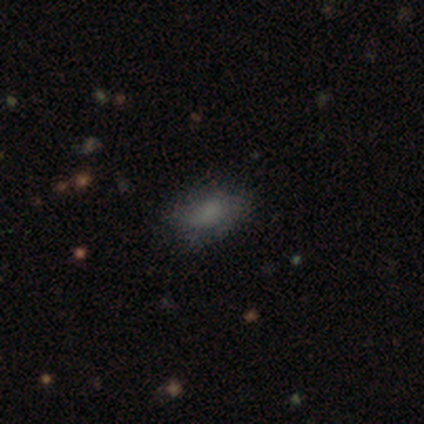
A smooth galaxy with no disk features (60%) that is in between round and cigar-shaped (100%).

Vote fractions:
- Smooth or featured? smooth: 60% / featured or disk: 40% / star or artifact: 0%
- How rounded? in between: 100% / round: 0% / cigar-shaped: 0%
- Merging? none: 60% / minor disturbance: 20% / major disturbance: 20% / merger: 0%